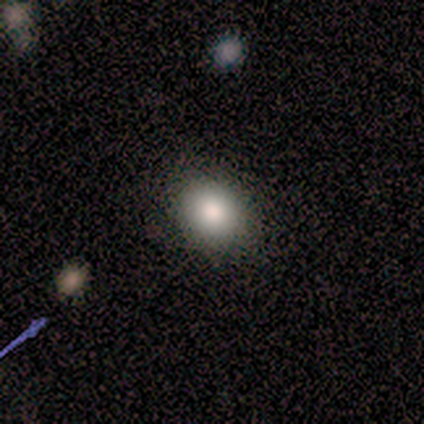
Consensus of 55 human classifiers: A smooth galaxy with no disk features (93%) that is round (55%). Merging: none (91%).